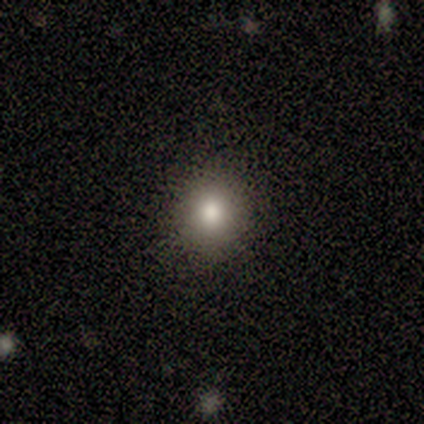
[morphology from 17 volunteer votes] Smooth or featured? 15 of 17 (88%) said smooth. How rounded? 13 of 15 (87%) said round. Merging? 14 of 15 (93%) said none.